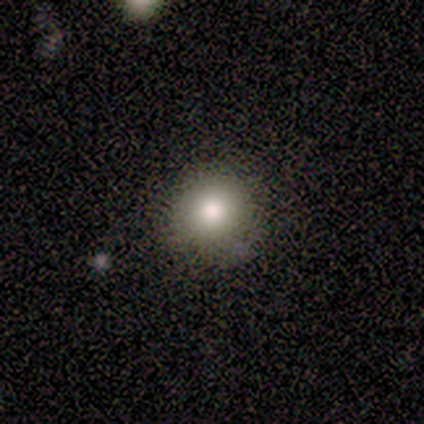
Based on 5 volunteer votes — A smooth galaxy with no disk features (60%) that is round (67%). Merging: none (100%).